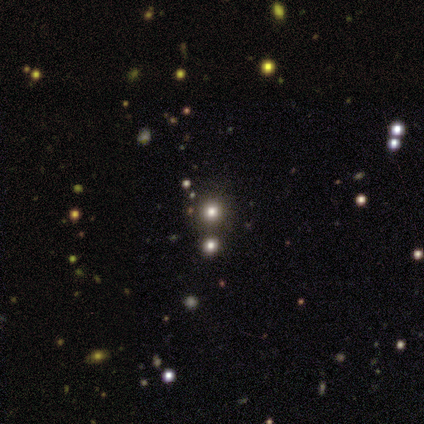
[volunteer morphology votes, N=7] Volunteers were most divided on "smooth or featured": star or artifact: 86%, smooth: 14%, featured or disk: 0%.